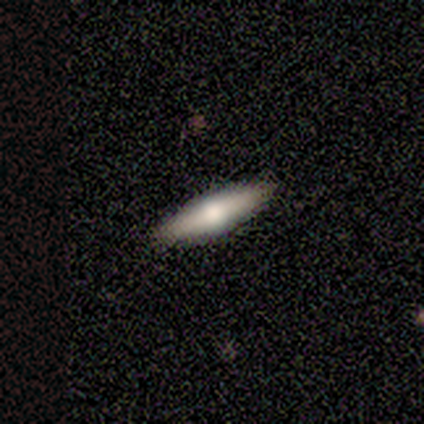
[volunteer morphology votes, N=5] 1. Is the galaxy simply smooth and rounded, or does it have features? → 80% smooth, 20% featured or disk, 0% star or artifact.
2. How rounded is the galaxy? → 100% cigar-shaped, 0% round, 0% in between.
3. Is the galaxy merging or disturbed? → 100% none, 0% minor disturbance, 0% major disturbance, 0% merger.